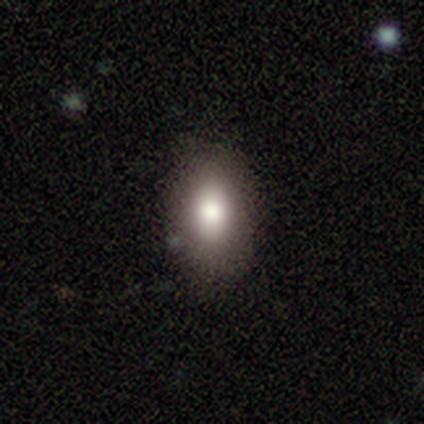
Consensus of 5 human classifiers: smooth 80%, star or artifact 20%, featured or disk 0%. Down the decision tree: how rounded — in between (75%); merging — none (100%).